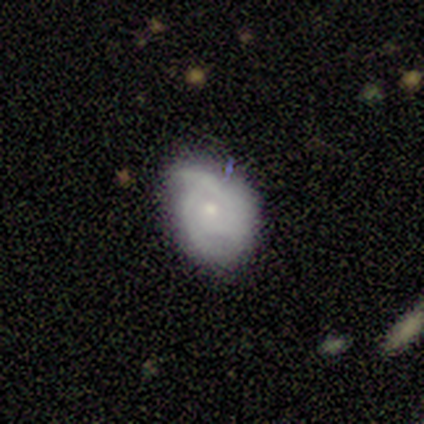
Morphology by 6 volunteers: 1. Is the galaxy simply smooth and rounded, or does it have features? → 67% featured or disk, 17% smooth, 17% star or artifact.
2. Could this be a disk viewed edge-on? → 100% no, 0% yes.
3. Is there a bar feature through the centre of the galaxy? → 75% no, 25% weak, 0% strong.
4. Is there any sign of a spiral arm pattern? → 100% yes, 0% no.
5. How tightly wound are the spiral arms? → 50% tight (tied), 50% medium (tied), 0% loose.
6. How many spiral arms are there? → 50% 3, 25% 2, 25% can't tell, 0% 1, 0% 4, 0% more than 4.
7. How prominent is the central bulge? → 75% small, 25% moderate, 0% dominant, 0% large, 0% none.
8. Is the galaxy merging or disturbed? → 60% none, 40% minor disturbance, 0% major disturbance, 0% merger.